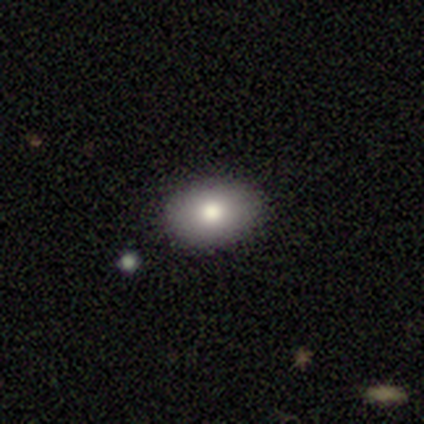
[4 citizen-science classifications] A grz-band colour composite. It shows a smooth galaxy with no disk features (75%) that is in between round and cigar-shaped (100%). Merging: none (75%).